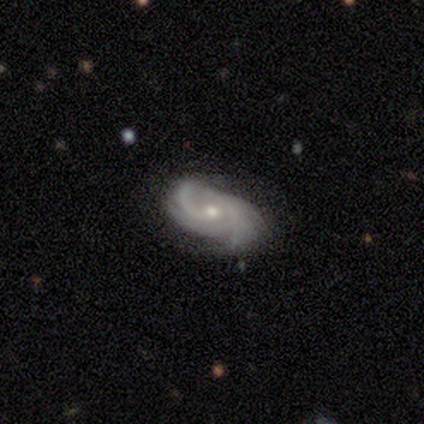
smooth-or-featured: featured or disk: 100% | smooth: 0% | star or artifact: 0%
  disk-edge-on: no: 100% | yes: 0%
    bar: weak: 60% | no: 40% | strong: 0%
    has-spiral-arms: yes: 100% | no: 0%
      spiral-winding: medium: 40% (tied) | loose: 40% (tied) | tight: 20%
      spiral-arm-count: 2: 60% | 4: 40% | 1: 0% | 3: 0% | more than 4: 0% | can't tell: 0%
    bulge-size: small: 60% | moderate: 40% | dominant: 0% | large: 0% | none: 0%
  merging: none: 60% | minor disturbance: 40% | major disturbance: 0% | merger: 0%